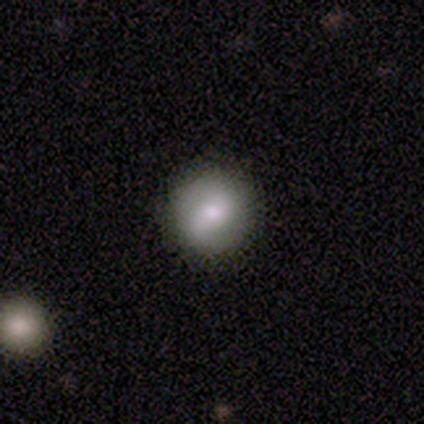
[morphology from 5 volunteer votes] smooth_or_featured: smooth (p=0.60) [alt: featured or disk p=0.40]
how_rounded: round (p=1.00)
merging: none (p=1.00)